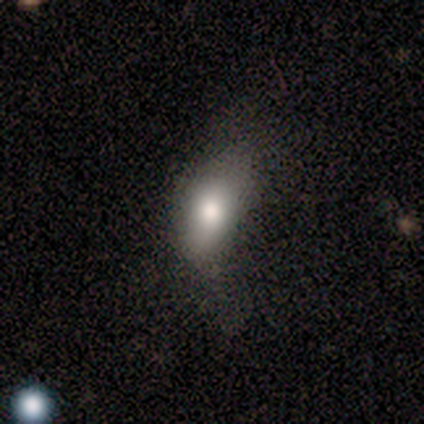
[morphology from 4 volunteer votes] Volunteers were most divided on "merging" (3-way tie): none: 33%, minor disturbance: 33%, major disturbance: 33%, merger: 0%. More confident: how rounded — in between (100%); smooth or featured — smooth (50%).